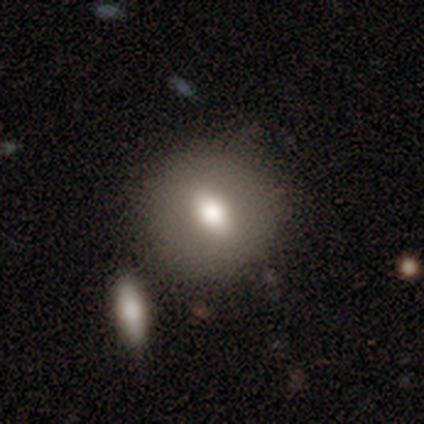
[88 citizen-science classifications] Smooth or featured: smooth — 69% (featured or disk — 22%)
How rounded: round — 67% (in between — 30%)
Merging: none — 74% (minor disturbance — 12%)